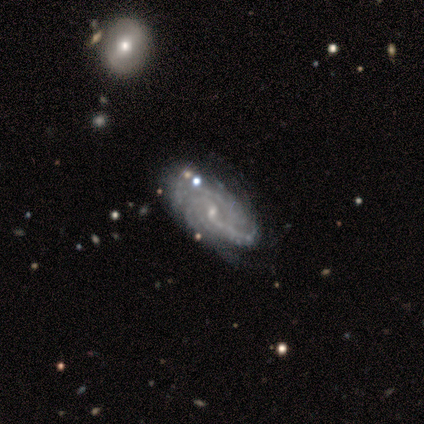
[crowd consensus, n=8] smooth_or_featured: featured or disk (p=0.88) [alt: smooth p=0.12]
disk_edge_on: no (p=1.00)
bar: no (p=0.57) [alt: weak p=0.43]
has_spiral_arms: yes (p=1.00)
spiral_winding: tight (p=0.71) [alt: medium p=0.29]
spiral_arm_count: 2 (p=0.29) [tied with: 3 p=0.29, can't tell p=0.29]
bulge_size: small (p=1.00)
merging: none (p=0.62) [alt: minor disturbance p=0.25]